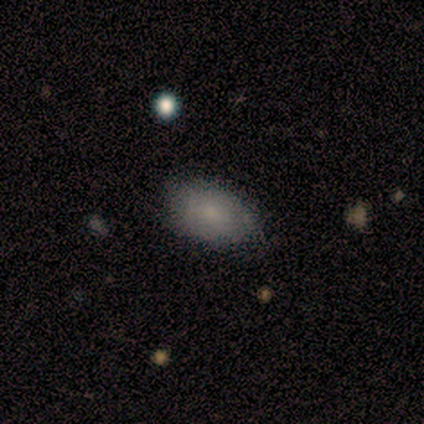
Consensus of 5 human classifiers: Smooth or featured: smooth — 80% (featured or disk — 20%)
How rounded: in between — 100%
Merging: none — 80% (minor disturbance — 20%)